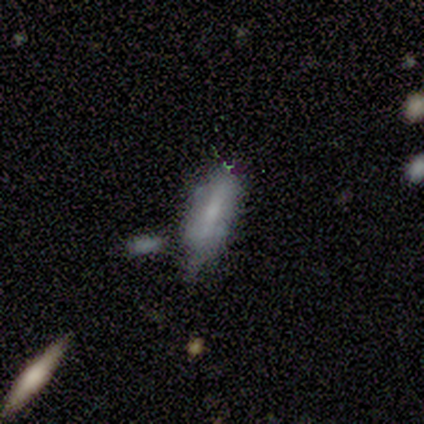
smooth_or_featured: smooth (p=0.60) [alt: featured or disk p=0.20]
how_rounded: in between (p=1.00)
merging: minor disturbance (p=0.50) [tied with: merger p=0.50]